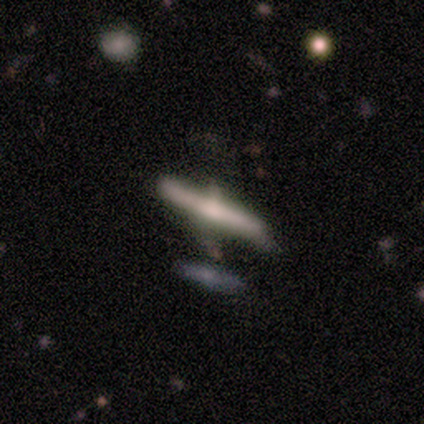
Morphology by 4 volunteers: Volunteers were most divided on "merging": none: 50%, minor disturbance: 25%, merger: 25%, major disturbance: 0%. More confident: edge-on disk — yes (100%); edge-on bulge — rounded (100%); smooth or featured — featured or disk (75%).